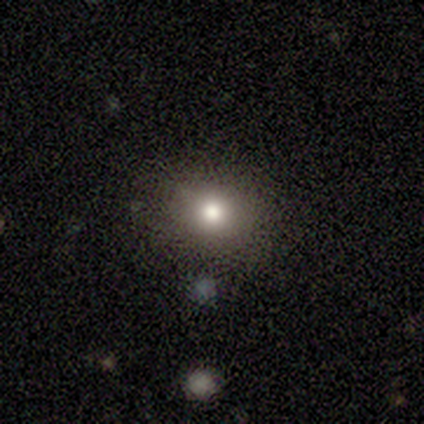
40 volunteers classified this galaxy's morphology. smooth-or-featured: smooth: 78% | star or artifact: 15% | featured or disk: 8%
  how-rounded: round: 71% | in between: 29% | cigar-shaped: 0%
  merging: none: 91% | minor disturbance: 9% | major disturbance: 0% | merger: 0%